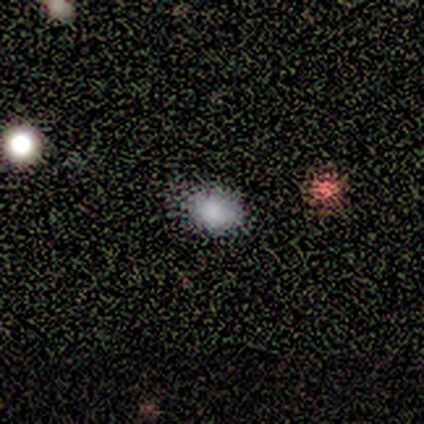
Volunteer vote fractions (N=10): smooth-or-featured: smooth: 80% | featured or disk: 10% | star or artifact: 10%
  how-rounded: in between: 62% | round: 38% | cigar-shaped: 0%
  merging: none: 100% | minor disturbance: 0% | major disturbance: 0% | merger: 0%